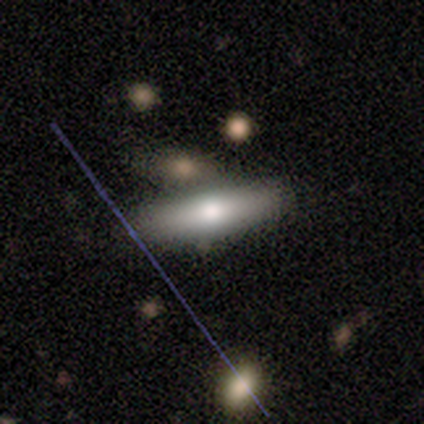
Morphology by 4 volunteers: A smooth galaxy with no disk features (50%, tied with featured or disk) that is in between round and cigar-shaped (50%, tied with cigar-shaped). Merging: none (100%).